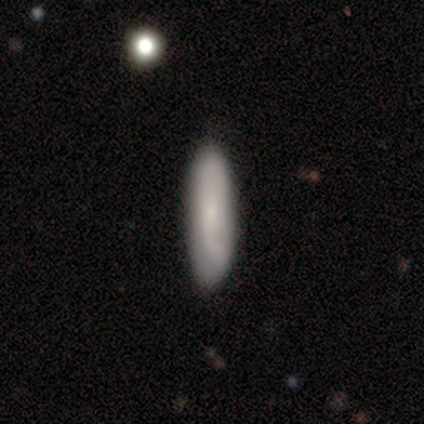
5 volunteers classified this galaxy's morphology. smooth_or_featured: smooth (p=0.80) [alt: star or artifact p=0.20]
how_rounded: cigar-shaped (p=0.75) [alt: in between p=0.25]
merging: none (p=1.00)